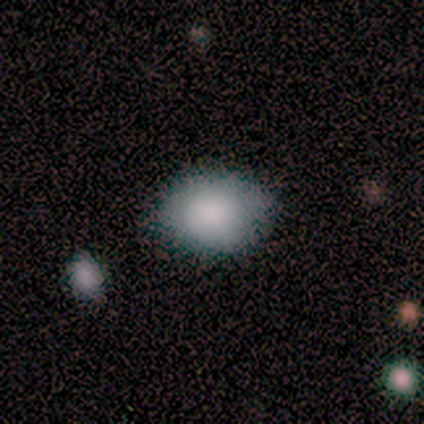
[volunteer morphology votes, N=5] Volunteers were most divided on "how rounded": in between: 75%, round: 25%, cigar-shaped: 0%. More confident: merging — none (100%); smooth or featured — smooth (80%).